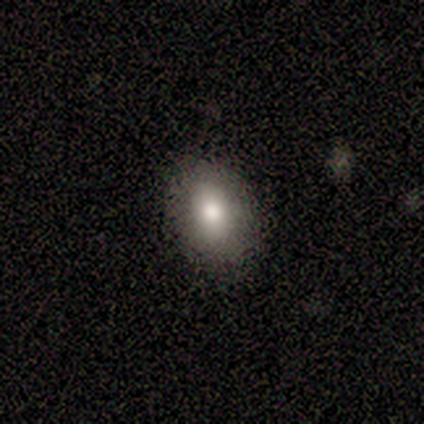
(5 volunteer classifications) Overall: smooth (100%). How rounded: in between (100%). Merging: none (80%).